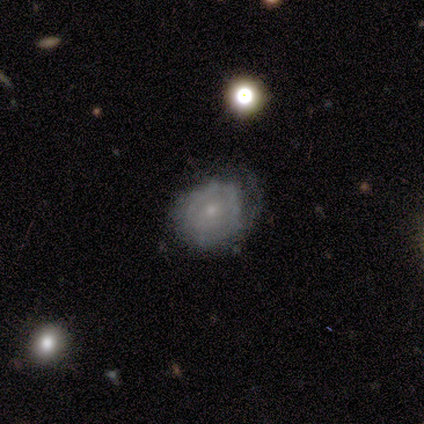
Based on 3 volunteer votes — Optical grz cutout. It shows a featured or disk galaxy (67%) with no bar (100%), 1 (100%) tight (100%) spiral arms (50%, tied with no) and a small central bulge (100%). Merging: none (67%).